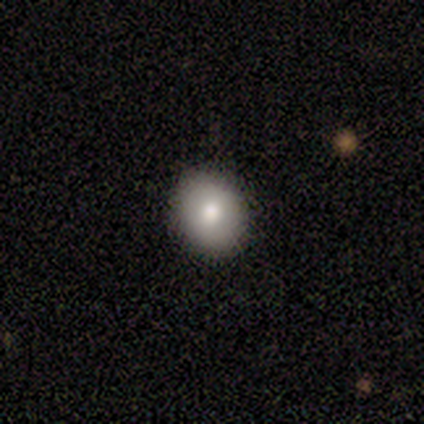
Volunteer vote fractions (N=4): Smooth or featured? 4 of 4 (100%) said smooth. How rounded? 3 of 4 (75%) said round. Merging? 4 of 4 (100%) said none.